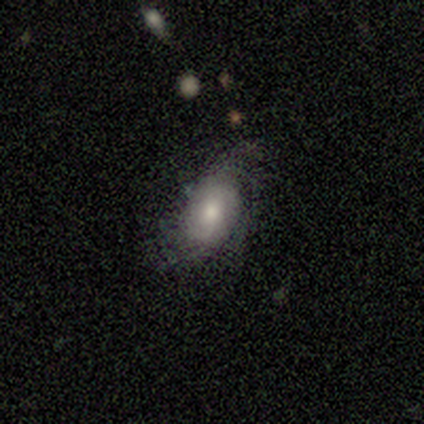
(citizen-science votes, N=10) Morphology: type=featured or disk (50%); edge-on=no (80%); bar=no (75%); spiral arms=yes (75%); winding=tight (67%); arm count=can't tell (67%); bulge=moderate (75%); merging=none (88%).